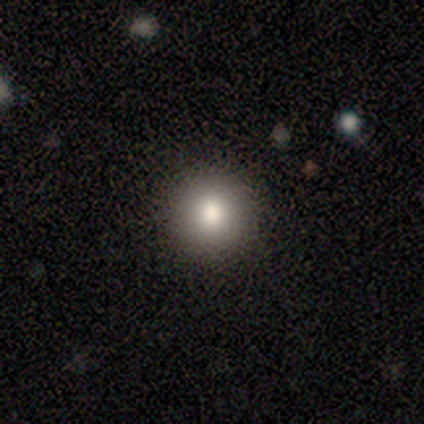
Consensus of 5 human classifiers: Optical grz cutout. It shows a smooth galaxy with no disk features (80%) that is round (100%). Merging: none (100%).